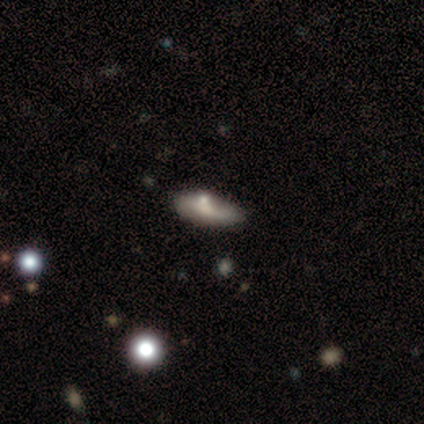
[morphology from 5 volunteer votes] Smooth or featured? smooth (100%)
How rounded? in between (80%)
Merging? none (60%)